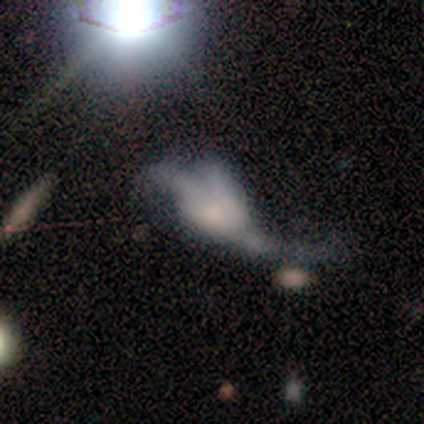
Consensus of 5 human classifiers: Q: Smooth or featured?
A: smooth (60%); runner-up: featured or disk (20%)
Q: How rounded?
A: in between (100%)
Q: Merging?
A: major disturbance (50%); runner-up: none (25%)